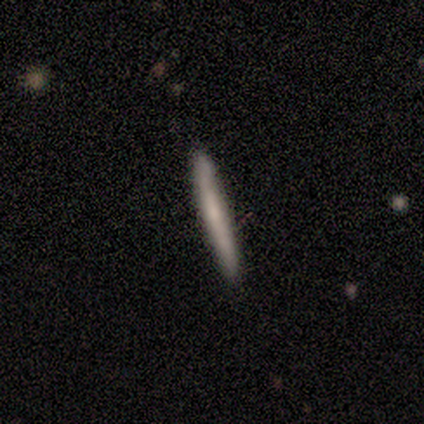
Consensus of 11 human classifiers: smooth_or_featured: smooth (p=0.55) [alt: featured or disk p=0.45]
how_rounded: cigar-shaped (p=1.00)
merging: none (p=0.73) [alt: minor disturbance p=0.27]